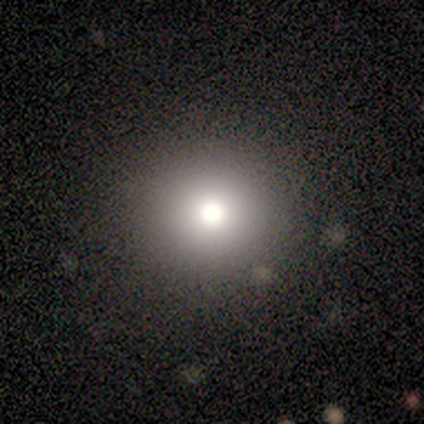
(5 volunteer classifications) smooth_or_featured: smooth (p=1.00)
how_rounded: round (p=1.00)
merging: none (p=1.00)